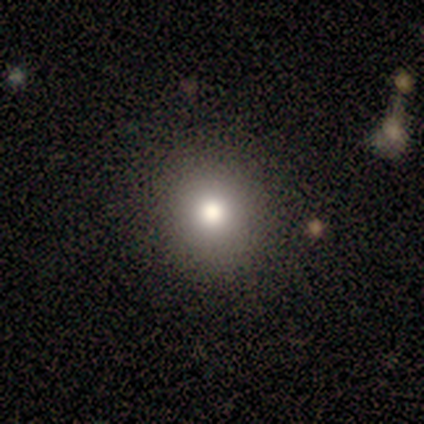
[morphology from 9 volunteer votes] Smooth or featured?
  - smooth: 89% *
  - featured or disk: 11%
  - star or artifact: 0%
How rounded?
  - round: 88% *
  - in between: 12%
  - cigar-shaped: 0%
Merging?
  - none: 67% *
  - minor disturbance: 22%
  - merger: 11%
  - major disturbance: 0%